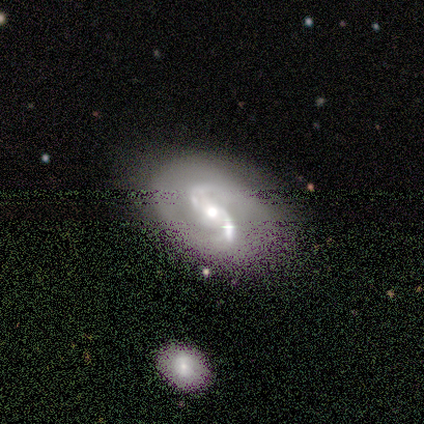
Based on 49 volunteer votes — A featured or disk galaxy (90%) with no bar (44%), 2 (98%) medium (51%) spiral arms (100%) and a moderate central bulge (65%).

Vote fractions:
- Smooth or featured? featured or disk: 90% / smooth: 6% / star or artifact: 4%
- Edge-on disk? no: 98% / yes: 2%
- Bar? no: 44% / weak: 30% / strong: 26%
- Spiral arms? yes: 100% / no: 0%
- Spiral winding? medium: 51% / loose: 37% / tight: 12%
- Spiral arm count? 2: 98% / 4: 2% / 1: 0% / 3: 0% / more than 4: 0% / can't tell: 0%
- Bulge size? moderate: 65% / small: 16% / large: 14% / dominant: 5% / none: 0%
- Merging? none: 62% / minor disturbance: 21% / major disturbance: 9% / merger: 9%